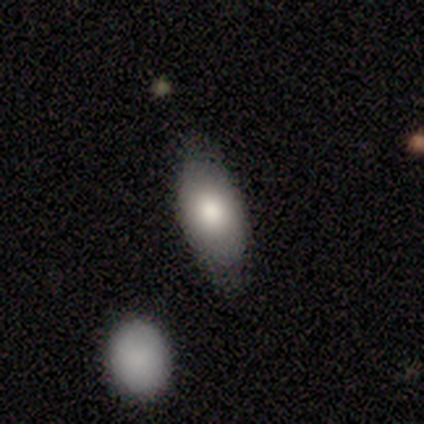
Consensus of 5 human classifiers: A smooth galaxy with no disk features (60%) that is in between round and cigar-shaped (100%).

Vote fractions:
- Smooth or featured? smooth: 60% / star or artifact: 40% / featured or disk: 0%
- How rounded? in between: 100% / round: 0% / cigar-shaped: 0%
- Merging? minor disturbance: 67% / none: 33% / major disturbance: 0% / merger: 0%